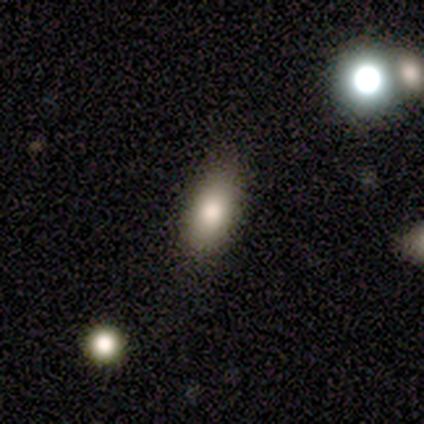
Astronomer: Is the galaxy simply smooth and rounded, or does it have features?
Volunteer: smooth — 75%.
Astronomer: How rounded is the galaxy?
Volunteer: in between — 100%.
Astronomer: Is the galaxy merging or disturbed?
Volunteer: none — 75%.